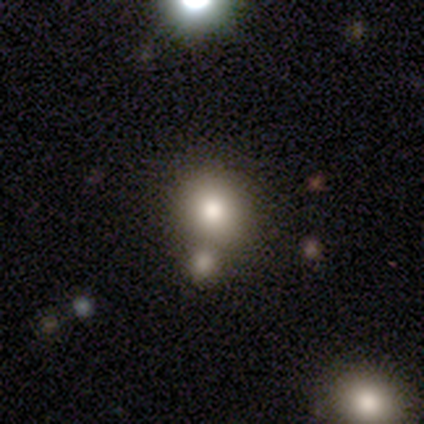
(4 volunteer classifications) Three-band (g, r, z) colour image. It shows a smooth galaxy with no disk features (100%) that is round (50%, tied with in between). Merging: none (50%, tied with merger).